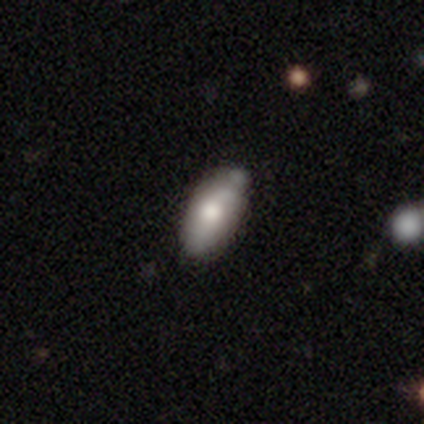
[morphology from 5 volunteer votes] This appears to be a smooth galaxy with no disk features (100%) that is in between round and cigar-shaped (100%). Merging: none (60%).